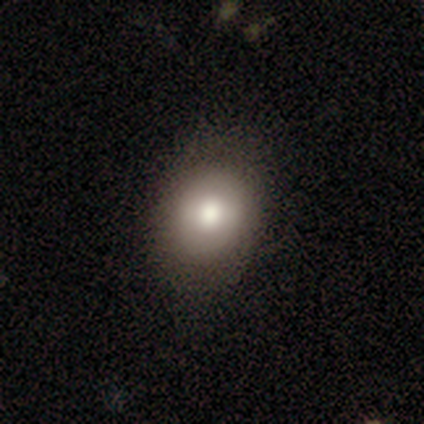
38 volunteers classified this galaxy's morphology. smooth-or-featured: smooth: 74% | featured or disk: 16% | star or artifact: 11%
  how-rounded: round: 61% | in between: 39% | cigar-shaped: 0%
  merging: none: 85% | minor disturbance: 12% | major disturbance: 3% | merger: 0%